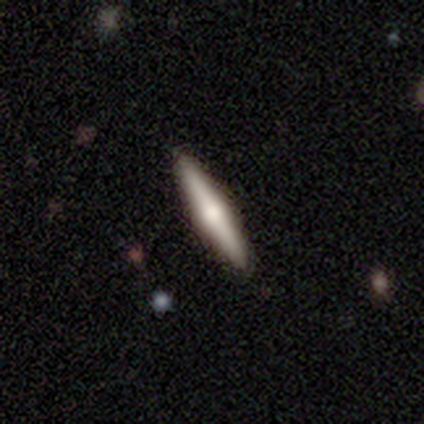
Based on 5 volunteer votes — Q: Smooth or featured?
A: featured or disk (60%); runner-up: smooth (20%)
Q: Edge-on disk?
A: yes (100%)
Q: Edge-on bulge?
A: rounded (100%)
Q: Merging?
A: none (100%)